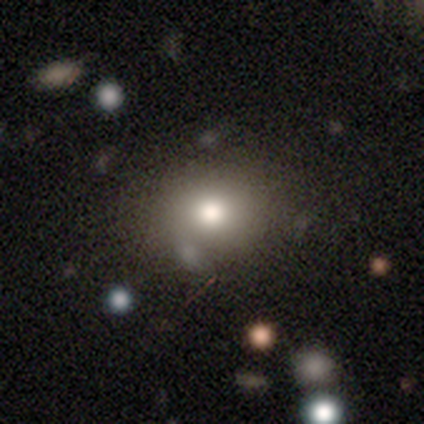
Morphology: type=smooth (100%); roundness=round (50%, tied with in between); merging=none (100%).